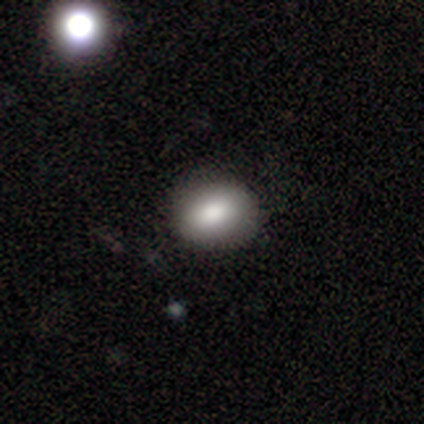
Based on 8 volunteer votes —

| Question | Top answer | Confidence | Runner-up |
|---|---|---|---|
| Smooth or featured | smooth | 88% | featured or disk (12%) |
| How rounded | in between | 86% | round (14%) |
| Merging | none | 88% | minor disturbance (12%) |